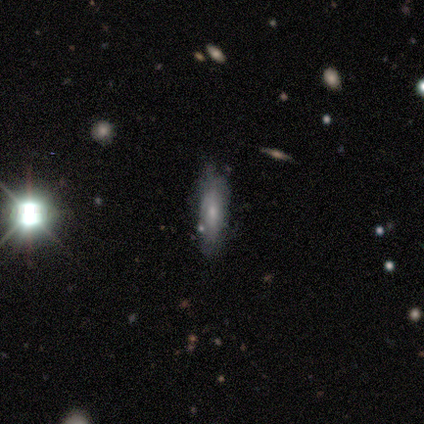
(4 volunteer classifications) A featured or disk galaxy (50%) with a weak bar (50%, tied with no), tight (100%) spiral arms (50%, tied with no) and a moderate central bulge (50%, tied with small). Merging: none (67%).